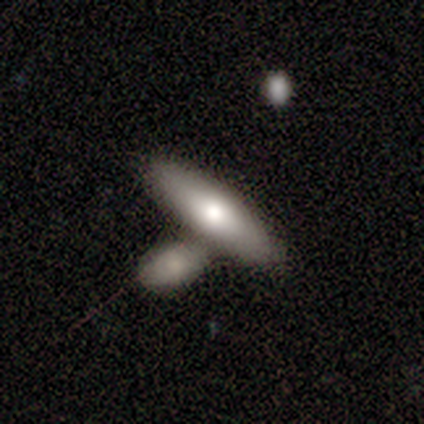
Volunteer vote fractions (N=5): This is clearly a smooth galaxy (80%). How rounded: clearly cigar-shaped (100%). Merging: clearly merger (80%).